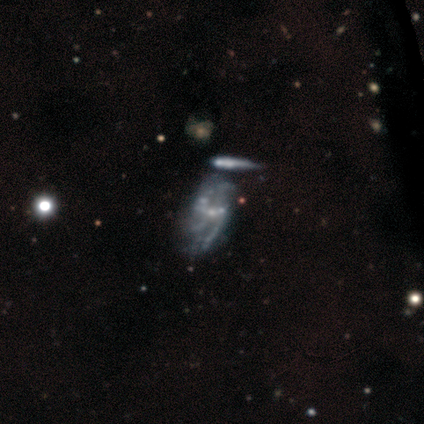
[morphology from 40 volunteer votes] smooth-or-featured: featured or disk: 85% | smooth: 10% | star or artifact: 5%
  disk-edge-on: no: 100% | yes: 0%
    bar: weak: 47% (tied) | no: 47% (tied) | strong: 6%
    has-spiral-arms: yes: 62% | no: 38%
      spiral-winding: medium: 52% | loose: 38% | tight: 10%
      spiral-arm-count: 2: 33% | can't tell: 29% | 3: 24% | 1: 5% | 4: 5% | more than 4: 5%
    bulge-size: small: 65% | moderate: 18% | none: 18% | dominant: 0% | large: 0%
  merging: none: 26% (tied) | merger: 26% (tied) | major disturbance: 21% | minor disturbance: 5%